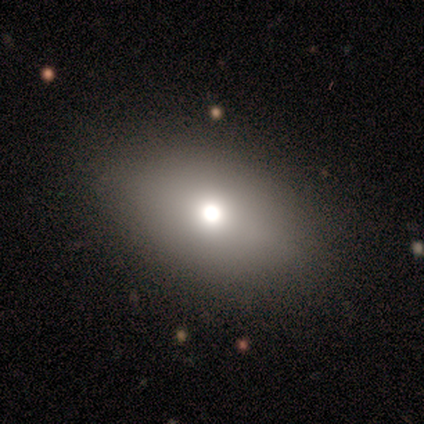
smooth-or-featured: smooth: 40% (tied) | star or artifact: 40% (tied) | featured or disk: 20%
  how-rounded: in between: 100% | round: 0% | cigar-shaped: 0%
  merging: none: 67% | minor disturbance: 33% | major disturbance: 0% | merger: 0%